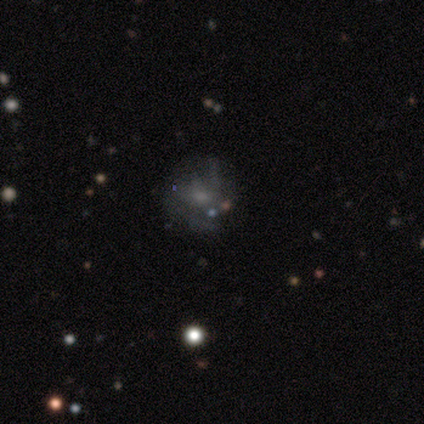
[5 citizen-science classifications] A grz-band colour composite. It shows a featured or disk galaxy (100%) with no bar (100%), 2 (33%, tied with 3 and can't tell) tight (33%, tied with medium and loose) spiral arms (60%) and a small central bulge (60%). Merging: none (60%).